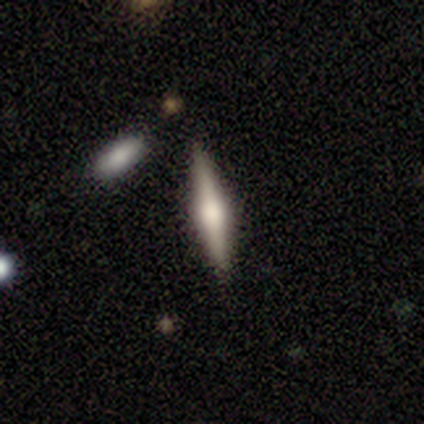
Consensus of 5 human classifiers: smooth-or-featured: featured or disk: 80% | smooth: 20% | star or artifact: 0%
  disk-edge-on: yes: 100% | no: 0%
    edge-on-bulge: boxy: 50% (tied) | rounded: 50% (tied) | none: 0%
  merging: none: 100% | minor disturbance: 0% | major disturbance: 0% | merger: 0%